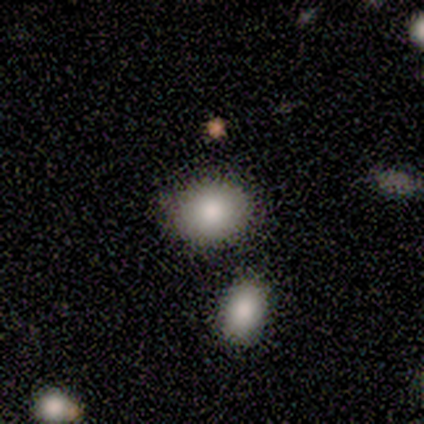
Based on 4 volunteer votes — Morphology: type=smooth (75%); roundness=in between (100%); merging=none (100%).